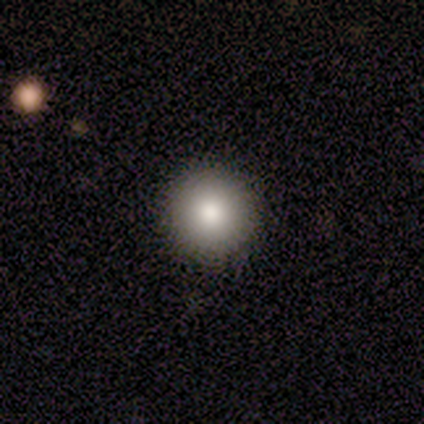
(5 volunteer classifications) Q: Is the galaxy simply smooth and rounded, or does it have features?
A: smooth — 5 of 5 (100%).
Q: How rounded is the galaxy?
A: round — 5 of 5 (100%).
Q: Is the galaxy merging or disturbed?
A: none — 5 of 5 (100%).